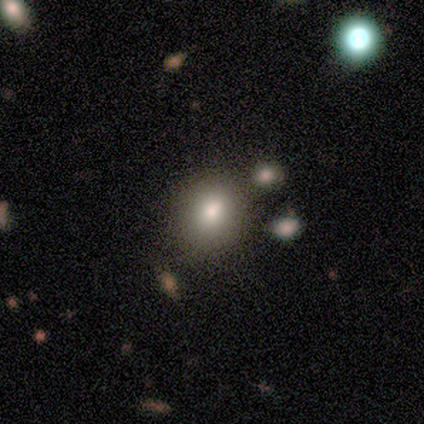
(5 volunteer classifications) Smooth or featured?
  - smooth: 80% *
  - featured or disk: 20%
  - star or artifact: 0%
How rounded?
  - in between: 100% *
  - round: 0%
  - cigar-shaped: 0%
Merging?
  - none: 80% *
  - minor disturbance: 20%
  - major disturbance: 0%
  - merger: 0%